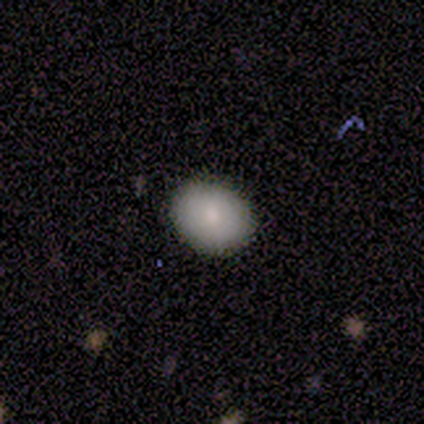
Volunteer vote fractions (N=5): Smooth or featured? smooth (100%)
How rounded? in between (80%)
Merging? none (80%)